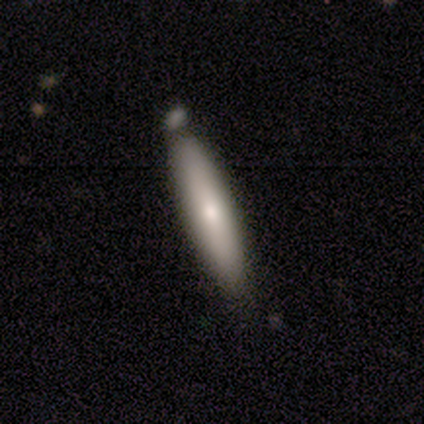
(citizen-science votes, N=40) Smooth or featured? smooth (65%)
How rounded? cigar-shaped (77%)
Merging? none (66%)